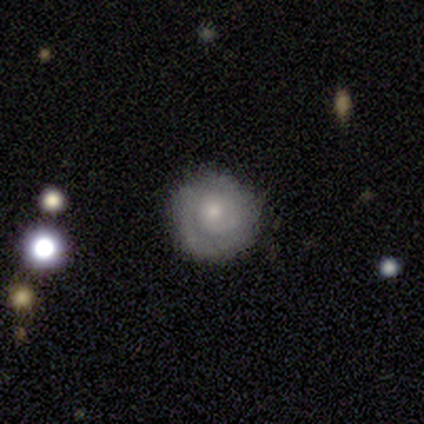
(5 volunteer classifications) Morphology: type=featured or disk (80%); edge-on=no (100%); bar=no (50%); spiral arms=yes (100%); winding=tight (50%); arm count=2 (75%); bulge=small (75%); merging=none (100%).